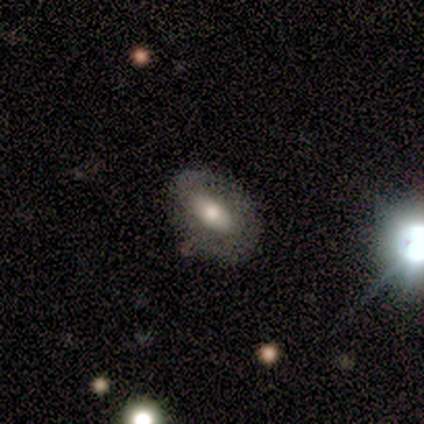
smooth-or-featured: smooth: 50% (tied) | featured or disk: 50% (tied) | star or artifact: 0%
  how-rounded: in between: 100% | round: 0% | cigar-shaped: 0%
  merging: none: 75% | minor disturbance: 25% | major disturbance: 0% | merger: 0%